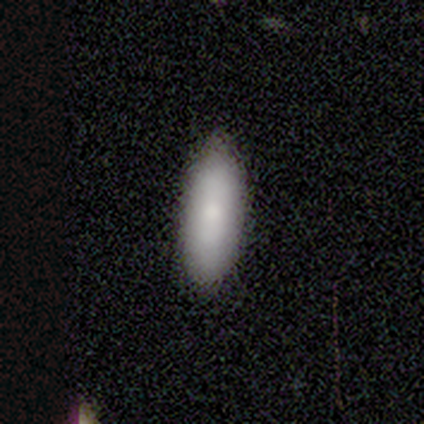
smooth_or_featured: smooth (p=1.00)
how_rounded: cigar-shaped (p=0.60) [alt: in between p=0.40]
merging: none (p=1.00)